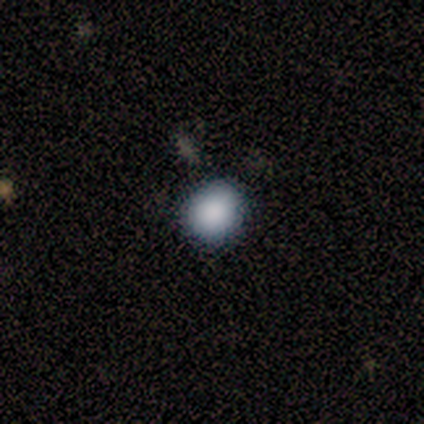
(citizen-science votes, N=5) A smooth galaxy with no disk features (100%) that is round (80%). Merging: none (60%).